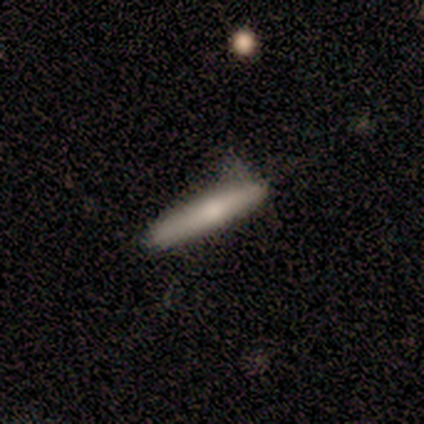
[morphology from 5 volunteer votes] Smooth or featured?
  - smooth: 80% *
  - featured or disk: 20%
  - star or artifact: 0%
How rounded?
  - cigar-shaped: 75% *
  - in between: 25%
  - round: 0%
Merging?
  - minor disturbance: 60% *
  - none: 40%
  - major disturbance: 0%
  - merger: 0%